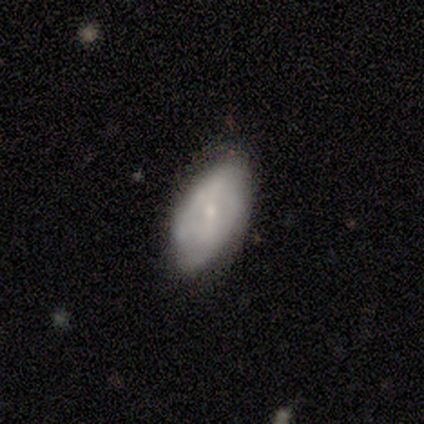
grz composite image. It shows a featured or disk galaxy (60%) with a weak bar (100%), 4 (50%, tied with can't tell) medium (100%) spiral arms (67%) and a moderate central bulge (67%). Merging: none (100%).